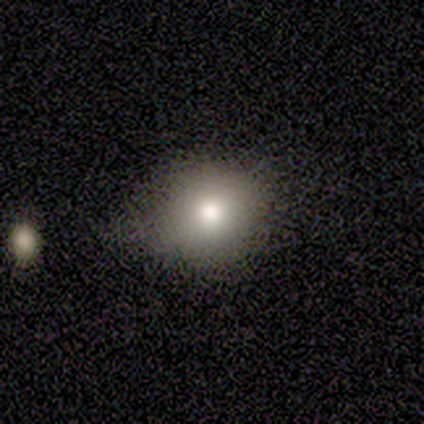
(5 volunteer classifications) smooth_or_featured: smooth (p=1.00)
how_rounded: round (p=1.00)
merging: none (p=0.80) [alt: major disturbance p=0.20]